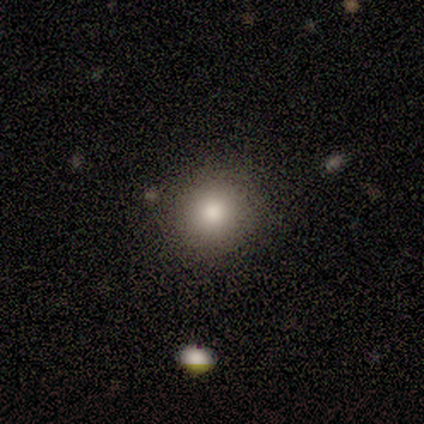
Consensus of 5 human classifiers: Q: Smooth or featured?
A: smooth (80%); runner-up: star or artifact (20%)
Q: How rounded?
A: round (75%); runner-up: in between (25%)
Q: Merging?
A: none (100%)